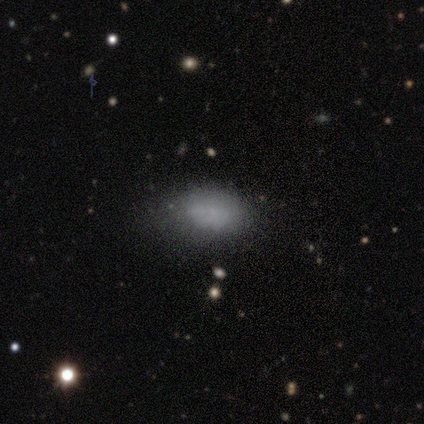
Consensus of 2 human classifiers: Smooth or featured: smooth — 100%
How rounded: in between — 100%
Merging: none — 50% (tied with minor disturbance — 50%)